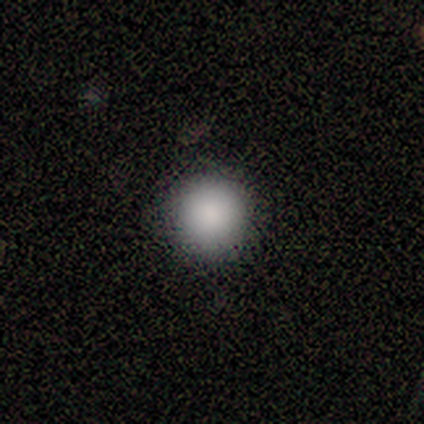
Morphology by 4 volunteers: smooth_or_featured: smooth (p=0.75) [alt: star or artifact p=0.25]
how_rounded: round (p=1.00)
merging: none (p=1.00)